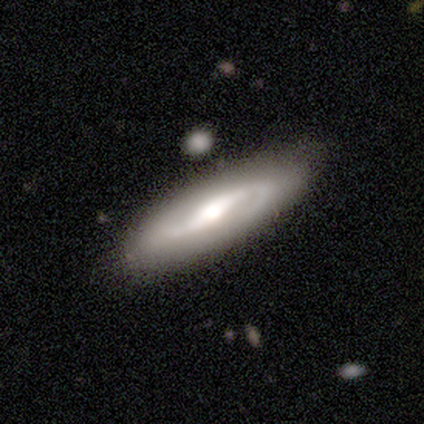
Morphology: type=featured or disk (82%); edge-on=no (84%); bar=strong (63%); spiral arms=yes (93%); winding=medium (56%); arm count=2 (84%); bulge=moderate (52%); merging=none (79%).